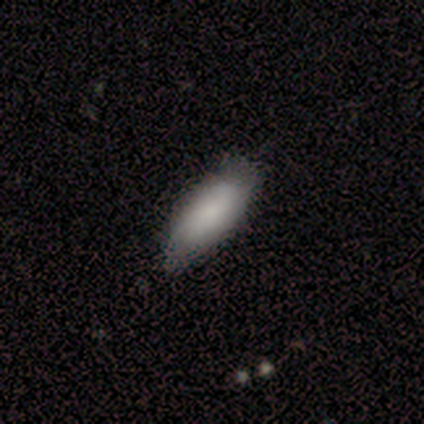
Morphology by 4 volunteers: Smooth or featured: smooth — 75% (featured or disk — 25%)
How rounded: in between — 100%
Merging: none — 100%